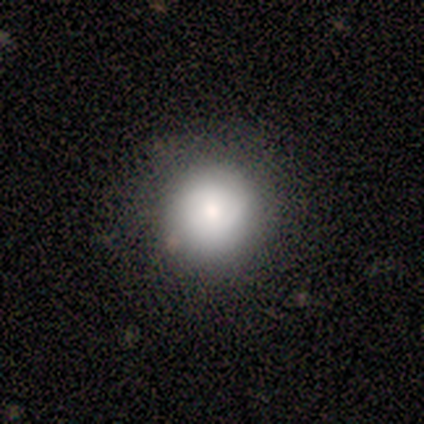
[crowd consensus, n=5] A smooth galaxy with no disk features (80%) that is round (100%). Merging: none (100%).